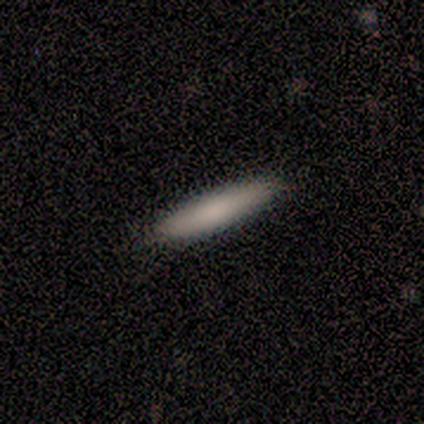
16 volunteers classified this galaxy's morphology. smooth 81%, featured or disk 19%, star or artifact 0%. Down the decision tree: how rounded — cigar-shaped (92%); merging — none (100%).